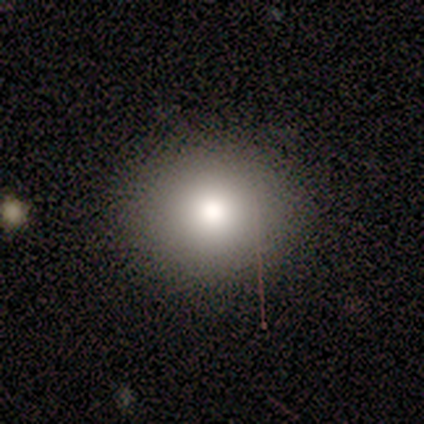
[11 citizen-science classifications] smooth 91%, featured or disk 9%, star or artifact 0%. Down the decision tree: how rounded — round (100%); merging — none (91%).